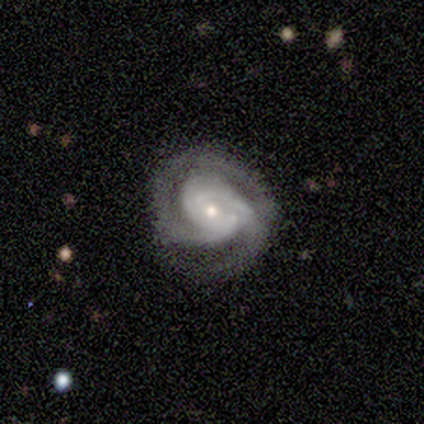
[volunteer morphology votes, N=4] smooth-or-featured: featured or disk: 100% | smooth: 0% | star or artifact: 0%
  disk-edge-on: no: 100% | yes: 0%
    bar: no: 50% | strong: 25% | weak: 25%
    has-spiral-arms: yes: 100% | no: 0%
      spiral-winding: tight: 50% (tied) | medium: 50% (tied) | loose: 0%
      spiral-arm-count: 2: 50% | 3: 25% | 4: 25% | 1: 0% | more than 4: 0% | can't tell: 0%
    bulge-size: moderate: 50% (tied) | small: 50% (tied) | dominant: 0% | large: 0% | none: 0%
  merging: none: 100% | minor disturbance: 0% | major disturbance: 0% | merger: 0%